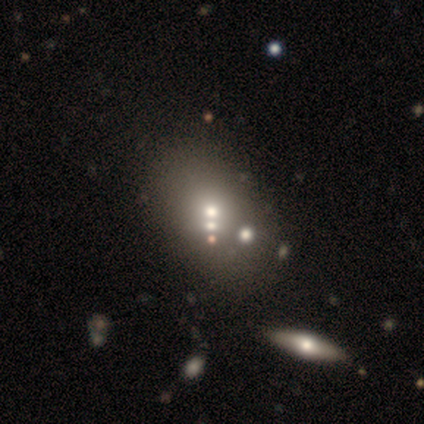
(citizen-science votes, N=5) A smooth galaxy with no disk features (60%) that is in between round and cigar-shaped (100%). Merging: none (60%).